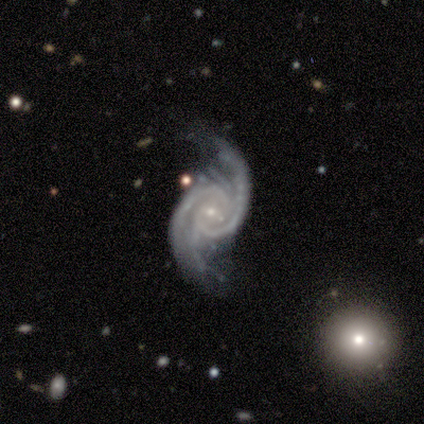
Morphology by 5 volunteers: Q: Smooth or featured?
A: featured or disk (80%); runner-up: star or artifact (20%)
Q: Edge-on disk?
A: no (100%)
Q: Bar?
A: no (100%)
Q: Spiral arms?
A: yes (100%)
Q: Spiral winding?
A: medium (50%); tied with: loose (50%)
Q: Spiral arm count?
A: 2 (75%); runner-up: can't tell (25%)
Q: Bulge size?
A: small (100%)
Q: Merging?
A: none (50%); tied with: minor disturbance (50%)